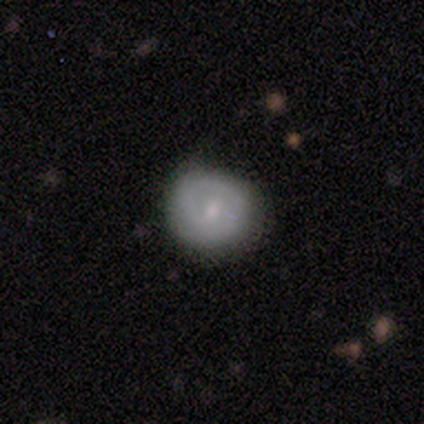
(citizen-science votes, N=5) A featured or disk galaxy (60%) with a weak bar (50%, tied with no), 1 (100%) loose (100%) spiral arms (50%, tied with no) and a moderate central bulge (100%). Merging: minor disturbance (60%).